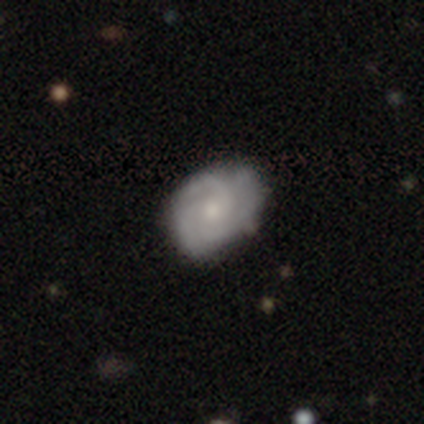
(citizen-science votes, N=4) Overall: smooth (75%). How rounded: in between (67%; round 33%). Merging: none (75%).